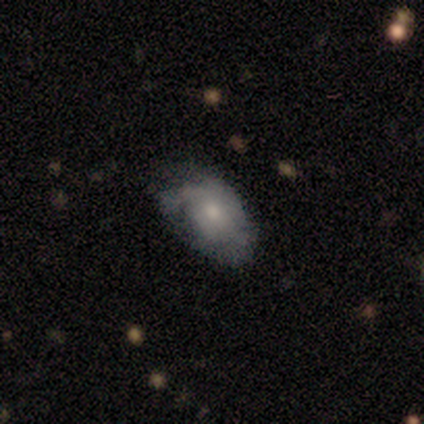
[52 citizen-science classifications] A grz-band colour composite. It shows a featured or disk galaxy (58%) with no bar (93%), tight (50%) spiral arms (67%) and a moderate central bulge (80%). Merging: none (49%).